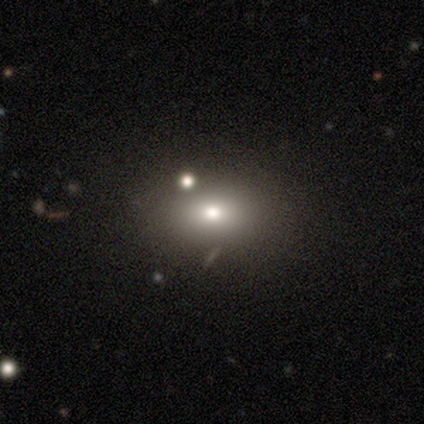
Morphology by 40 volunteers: smooth-or-featured: smooth: 75% | featured or disk: 12% | star or artifact: 12%
  how-rounded: in between: 70% | round: 27% | cigar-shaped: 3%
  merging: none: 74% | minor disturbance: 11% | major disturbance: 9% | merger: 6%